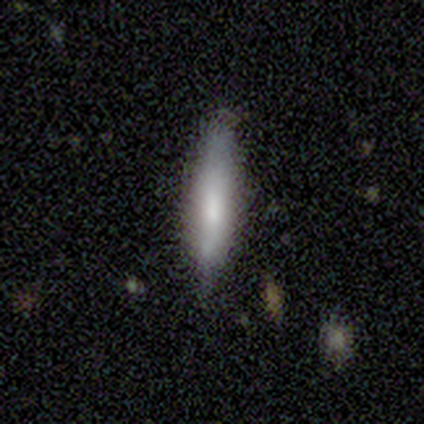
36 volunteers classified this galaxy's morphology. A smooth galaxy with no disk features (64%) that is cigar-shaped (96%). Merging: none (83%).